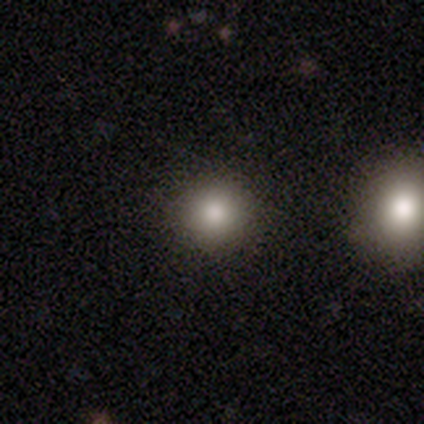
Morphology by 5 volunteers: smooth 80%, star or artifact 20%, featured or disk 0%. Down the decision tree: how rounded — round (100%); merging — none (100%).